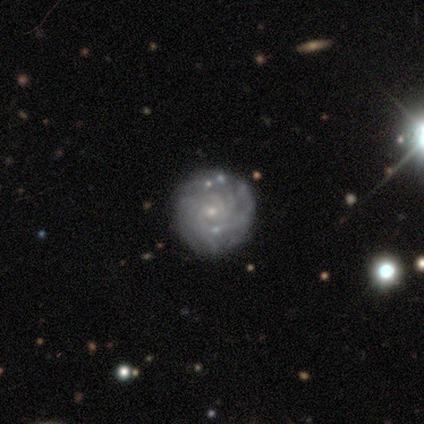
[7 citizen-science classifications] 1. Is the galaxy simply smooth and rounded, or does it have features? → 100% featured or disk, 0% smooth, 0% star or artifact.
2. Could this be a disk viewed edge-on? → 100% no, 0% yes.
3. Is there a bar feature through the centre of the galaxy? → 100% no, 0% strong, 0% weak.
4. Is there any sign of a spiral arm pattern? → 86% yes, 14% no.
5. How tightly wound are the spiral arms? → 67% tight, 33% medium, 0% loose.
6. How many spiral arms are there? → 33% more than 4 (tied), 33% can't tell (tied), 17% 3, 17% 4, 0% 1, 0% 2.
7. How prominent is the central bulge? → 71% small, 29% moderate, 0% dominant, 0% large, 0% none.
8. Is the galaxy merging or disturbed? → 86% none, 14% minor disturbance, 0% major disturbance, 0% merger.